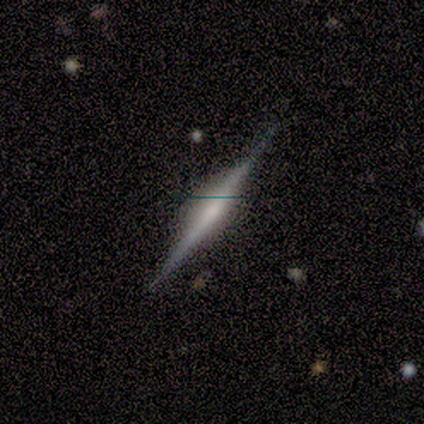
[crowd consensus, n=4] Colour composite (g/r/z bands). It shows a smooth galaxy with no disk features (50%, tied with featured or disk) that is cigar-shaped (100%). Merging: none (50%, tied with major disturbance).